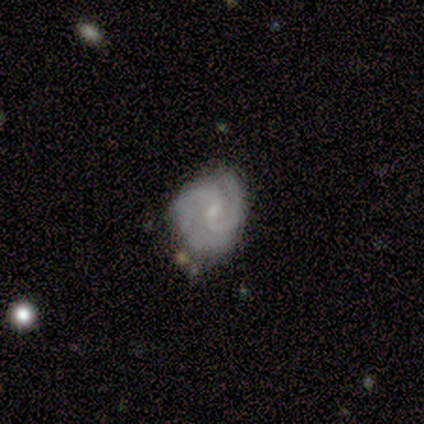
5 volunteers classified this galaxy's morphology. This appears to be a featured or disk galaxy (60%) with a weak bar (67%), 2 (100%) medium (67%) spiral arms (100%) and a small central bulge (100%). Merging: none (75%).